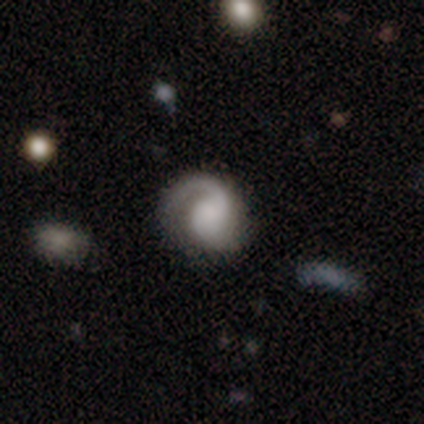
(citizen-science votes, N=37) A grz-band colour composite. It shows a featured or disk galaxy (76%) with no bar (61%), 1 (65%) medium (50%) spiral arms (93%) and no central bulge (54%). Merging: none (58%).